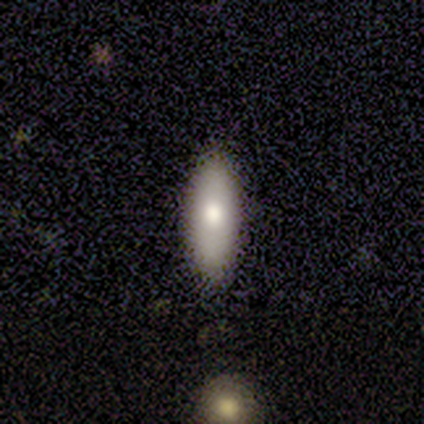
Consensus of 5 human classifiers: Q: Smooth or featured?
A: smooth (80%); runner-up: featured or disk (20%)
Q: How rounded?
A: in between (100%)
Q: Merging?
A: none (100%)